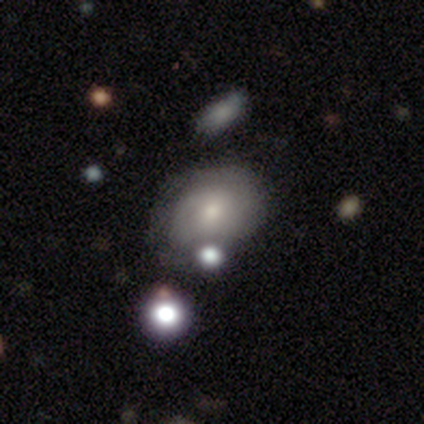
A smooth galaxy with no disk features (45%) that is in between round and cigar-shaped (67%).

Vote fractions:
- Smooth or featured? smooth: 45% / featured or disk: 40% / star or artifact: 15%
- How rounded? in between: 67% / round: 33% / cigar-shaped: 0%
- Merging? none: 53% / merger: 29% / minor disturbance: 15% / major disturbance: 3%